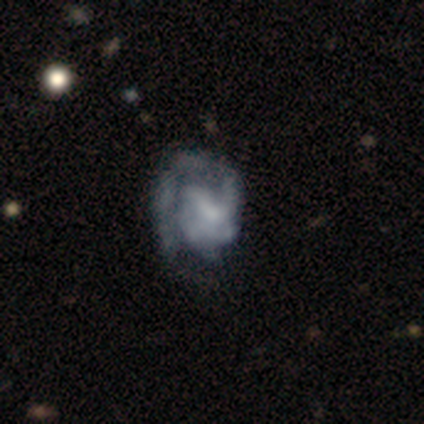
featured or disk 100%, smooth 0%, star or artifact 0%. Down the decision tree: edge-on disk — no (100%); bar — no (75%); spiral arms — yes (75%); spiral arm count — 1 (33%, tied with 2 and can't tell); spiral winding — tight (67%); bulge size — none (75%); merging — none (50%, tied with major disturbance).